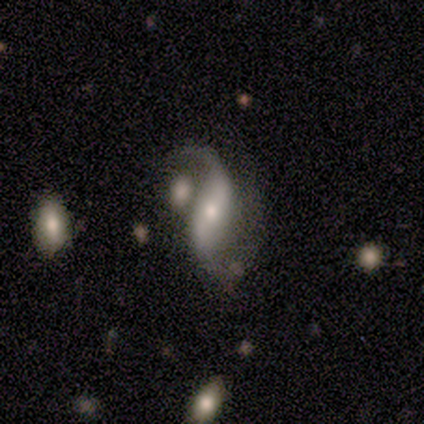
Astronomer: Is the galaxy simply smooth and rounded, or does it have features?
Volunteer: featured or disk — 100%.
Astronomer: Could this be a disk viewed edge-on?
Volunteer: no — 100%.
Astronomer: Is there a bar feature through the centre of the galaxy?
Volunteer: strong — 60%.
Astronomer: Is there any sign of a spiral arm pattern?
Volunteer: yes — 100%.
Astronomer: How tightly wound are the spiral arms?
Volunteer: loose — 80%.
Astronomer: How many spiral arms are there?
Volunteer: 2 — 100%.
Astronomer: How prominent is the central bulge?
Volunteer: moderate — 60%.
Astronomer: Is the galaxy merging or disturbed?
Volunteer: merger — 60%.